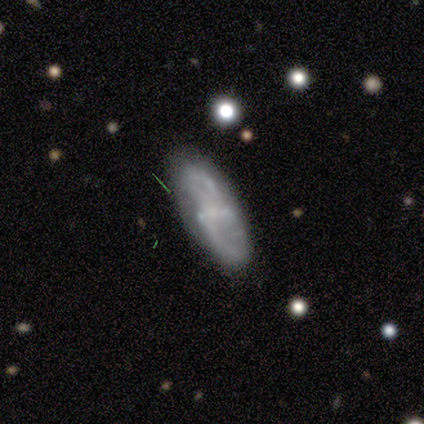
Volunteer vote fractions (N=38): Smooth or featured: featured or disk — 68% (smooth — 32%)
Edge-on disk: no — 96% (yes — 4%)
Bar: weak — 44% (no — 32%)
Spiral arms: yes — 80% (no — 20%)
Spiral winding: loose — 60% (medium — 25%)
Spiral arm count: 2 — 70% (can't tell — 25%)
Bulge size: small — 68% (none — 32%)
Merging: none — 63% (minor disturbance — 21%)